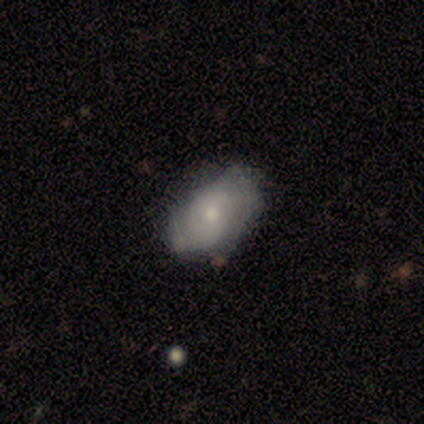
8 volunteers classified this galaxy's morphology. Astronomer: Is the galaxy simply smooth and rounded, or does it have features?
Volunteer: smooth — 62%.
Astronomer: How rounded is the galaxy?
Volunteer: in between — 100%.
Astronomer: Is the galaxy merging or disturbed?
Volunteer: none — 62%.